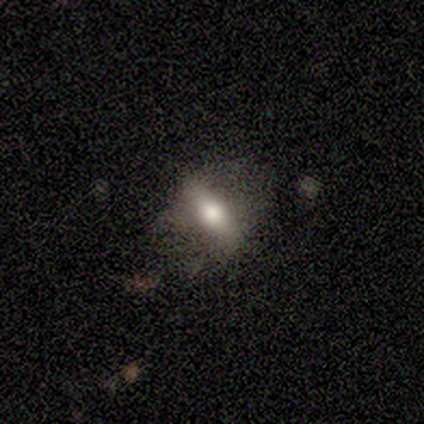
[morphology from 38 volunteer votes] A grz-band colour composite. It shows a smooth galaxy with no disk features (55%) that is in between round and cigar-shaped (76%). Merging: none (72%).